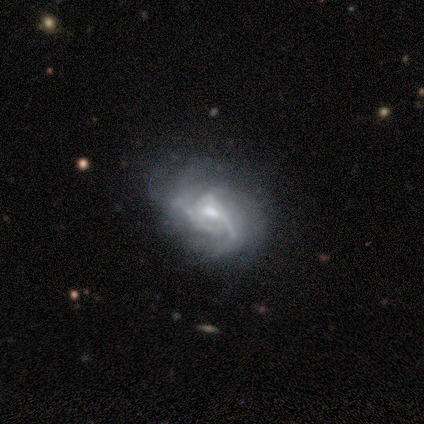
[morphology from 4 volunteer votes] Overall: featured or disk (100%). Edge-on disk: no (100%). Bar: no (75%). Spiral arms: yes (100%). Spiral arm count: can't tell (75%). Spiral winding: medium (75%). Bulge size: small (75%). Merging: none (75%).